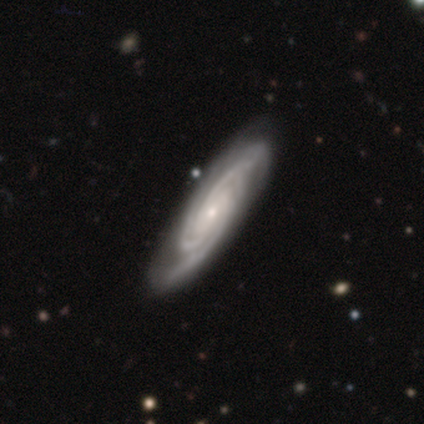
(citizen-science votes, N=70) This appears to be a featured or disk galaxy (96%) with no bar (75%), 3 (60%) tight (66%) spiral arms (97%) and a small central bulge (77%). Merging: none (49%).